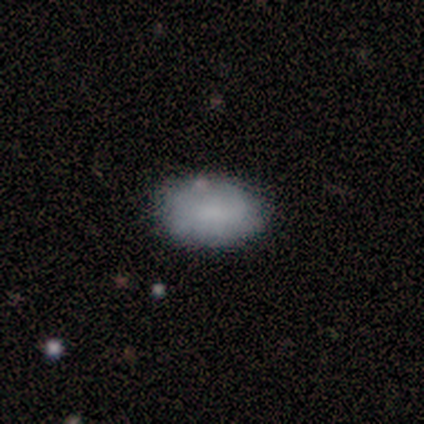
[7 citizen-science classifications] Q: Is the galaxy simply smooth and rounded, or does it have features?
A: smooth — 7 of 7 (100%).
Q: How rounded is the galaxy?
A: in between — 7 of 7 (100%).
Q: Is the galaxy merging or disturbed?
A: none — 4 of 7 (57%).